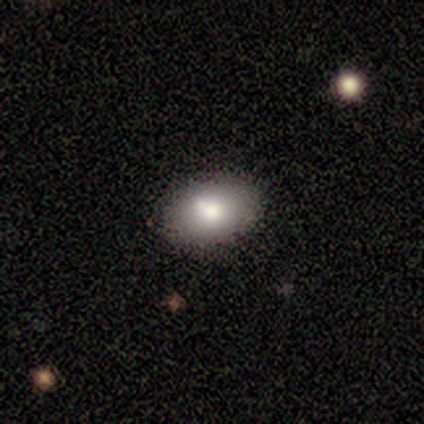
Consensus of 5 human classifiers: Smooth or featured?
  - smooth: 80% *
  - featured or disk: 20%
  - star or artifact: 0%
How rounded?
  - round: 50% * (tied)
  - in between: 50% * (tied)
  - cigar-shaped: 0%
Merging?
  - none: 100% *
  - minor disturbance: 0%
  - major disturbance: 0%
  - merger: 0%